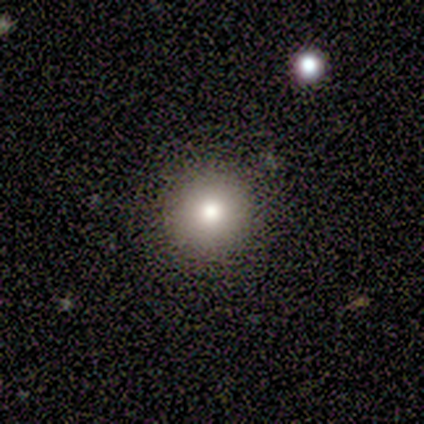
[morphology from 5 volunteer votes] Smooth or featured? 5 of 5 (100%) said smooth. How rounded? 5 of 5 (100%) said round. Merging? 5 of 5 (100%) said none.